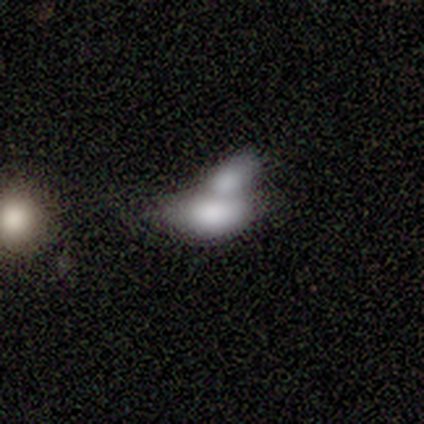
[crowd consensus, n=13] Smooth or featured?
  - smooth: 69% *
  - featured or disk: 15%
  - star or artifact: 15%
How rounded?
  - in between: 100% *
  - round: 0%
  - cigar-shaped: 0%
Merging?
  - merger: 82% *
  - none: 9%
  - minor disturbance: 9%
  - major disturbance: 0%